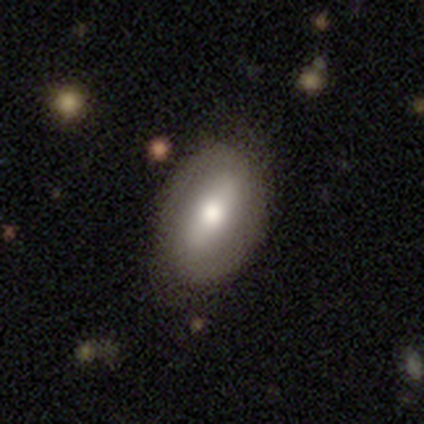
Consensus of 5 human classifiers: smooth_or_featured: featured or disk (p=0.60) [alt: smooth p=0.20]
disk_edge_on: no (p=1.00)
bar: strong (p=0.67) [alt: weak p=0.33]
has_spiral_arms: yes (p=0.67) [alt: no p=0.33]
spiral_winding: tight (p=0.50) [tied with: loose p=0.50]
spiral_arm_count: 2 (p=1.00)
bulge_size: moderate (p=0.67) [alt: small p=0.33]
merging: none (p=0.50) [tied with: minor disturbance p=0.50]